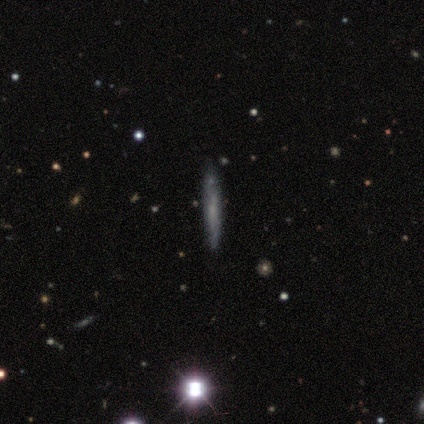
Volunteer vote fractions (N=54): Q: Smooth or featured?
A: smooth (52%); runner-up: featured or disk (37%)
Q: How rounded?
A: cigar-shaped (93%); runner-up: round (7%)
Q: Merging?
A: none (77%); runner-up: minor disturbance (15%)